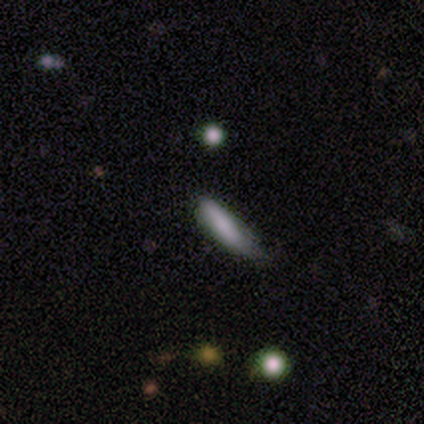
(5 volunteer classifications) Morphology: type=smooth (100%); roundness=cigar-shaped (60%); merging=none (80%).